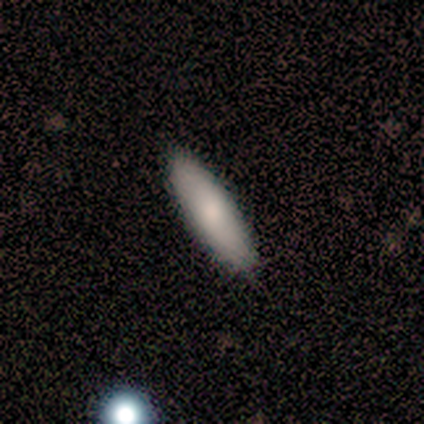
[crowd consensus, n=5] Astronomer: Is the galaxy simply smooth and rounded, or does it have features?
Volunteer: smooth — 100%.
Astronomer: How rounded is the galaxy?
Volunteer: cigar-shaped — 60% (runner-up: in between, 40%).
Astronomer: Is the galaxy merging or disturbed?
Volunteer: none — 80%.